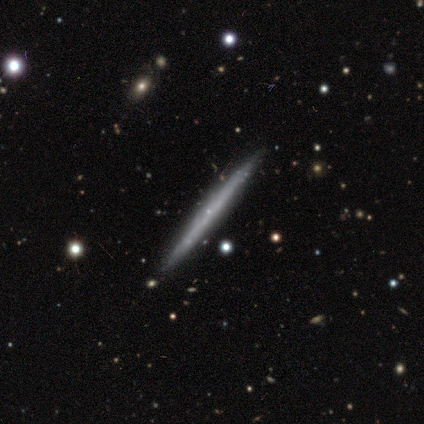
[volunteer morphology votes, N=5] A featured or disk galaxy (60%) viewed edge-on (100%) with no central bulge (100%).

Vote fractions:
- Smooth or featured? featured or disk: 60% / smooth: 40% / star or artifact: 0%
- Edge-on disk? yes: 100% / no: 0%
- Edge-on bulge? none: 100% / boxy: 0% / rounded: 0%
- Merging? none: 100% / minor disturbance: 0% / major disturbance: 0% / merger: 0%